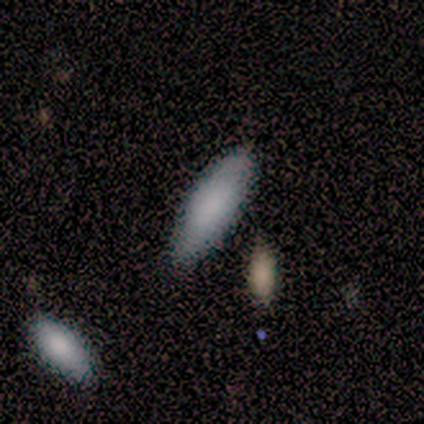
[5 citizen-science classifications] Q: Smooth or featured?
A: smooth (100%)
Q: How rounded?
A: in between (60%); runner-up: cigar-shaped (40%)
Q: Merging?
A: none (100%)